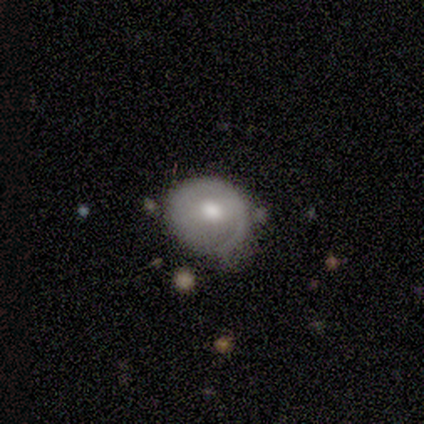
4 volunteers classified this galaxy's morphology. smooth_or_featured: featured or disk (p=0.75) [alt: smooth p=0.25]
disk_edge_on: no (p=1.00)
bar: no (p=0.67) [alt: strong p=0.33]
has_spiral_arms: no (p=0.67) [alt: yes p=0.33]
bulge_size: moderate (p=1.00)
merging: none (p=0.75) [alt: minor disturbance p=0.25]